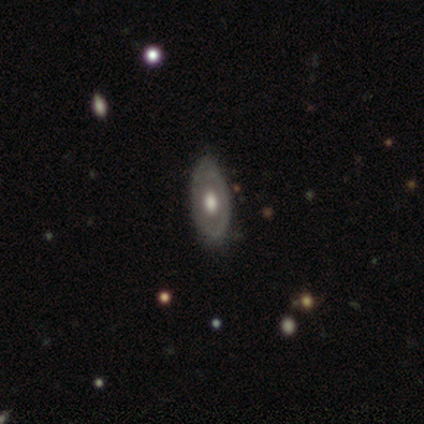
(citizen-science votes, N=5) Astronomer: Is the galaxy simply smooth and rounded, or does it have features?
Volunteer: featured or disk — 100%.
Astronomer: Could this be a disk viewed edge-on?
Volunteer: no — 100%.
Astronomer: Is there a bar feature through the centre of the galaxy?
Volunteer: no — 60% (runner-up: weak, 40%).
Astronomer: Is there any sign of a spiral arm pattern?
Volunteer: no — 80%.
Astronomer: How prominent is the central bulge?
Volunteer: large — 60% (runner-up: moderate, 40%).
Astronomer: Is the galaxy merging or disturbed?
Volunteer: none — 80%.